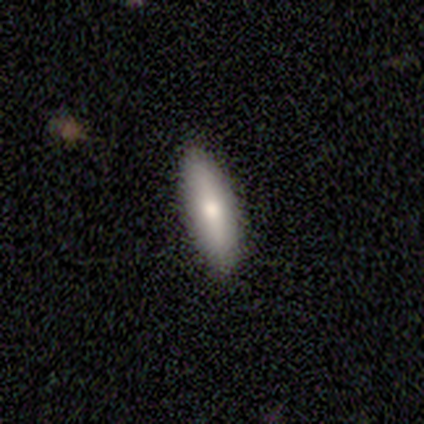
This is possibly a smooth galaxy (50%, tied with featured or disk). How rounded: possibly cigar-shaped (57%). Merging: clearly none (100%).